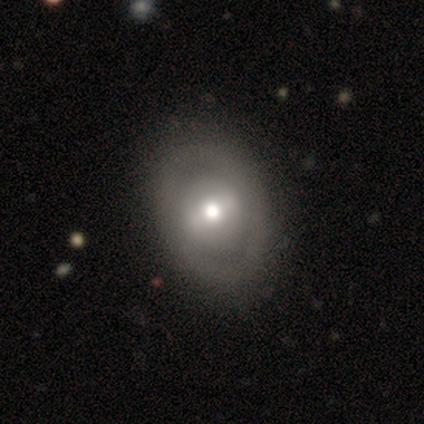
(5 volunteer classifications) A featured or disk galaxy (60%) with no bar (67%), no spiral arms (100%) and a moderate central bulge (100%).

Vote fractions:
- Smooth or featured? featured or disk: 60% / smooth: 40% / star or artifact: 0%
- Edge-on disk? no: 100% / yes: 0%
- Bar? no: 67% / strong: 33% / weak: 0%
- Spiral arms? no: 100% / yes: 0%
- Bulge size? moderate: 100% / dominant: 0% / large: 0% / small: 0% / none: 0%
- Merging? none: 100% / minor disturbance: 0% / major disturbance: 0% / merger: 0%